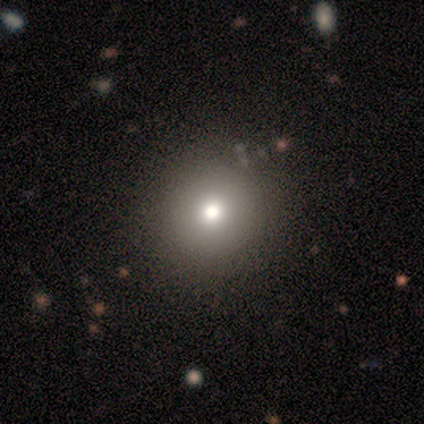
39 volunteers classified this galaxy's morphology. Overall: smooth (72%). How rounded: round (93%). Merging: none (53%).